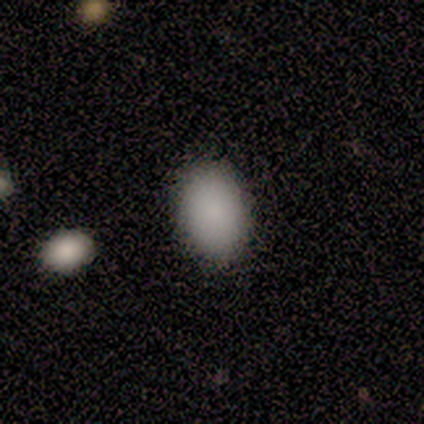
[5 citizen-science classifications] Smooth or featured: smooth — 80% (star or artifact — 20%)
How rounded: in between — 100%
Merging: none — 100%